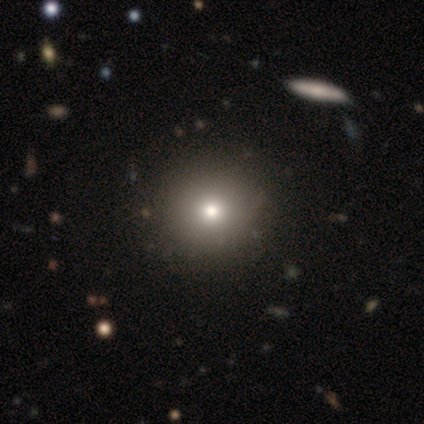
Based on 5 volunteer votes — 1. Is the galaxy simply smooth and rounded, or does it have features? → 60% smooth, 40% star or artifact, 0% featured or disk.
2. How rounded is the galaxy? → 100% round, 0% in between, 0% cigar-shaped.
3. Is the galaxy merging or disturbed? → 100% none, 0% minor disturbance, 0% major disturbance, 0% merger.